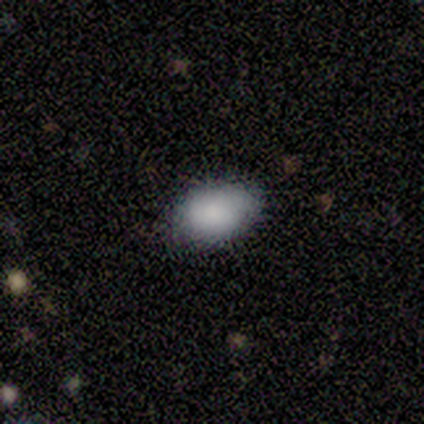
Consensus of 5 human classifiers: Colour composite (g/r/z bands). It shows a smooth galaxy with no disk features (100%) that is in between round and cigar-shaped (80%). Merging: none (80%).